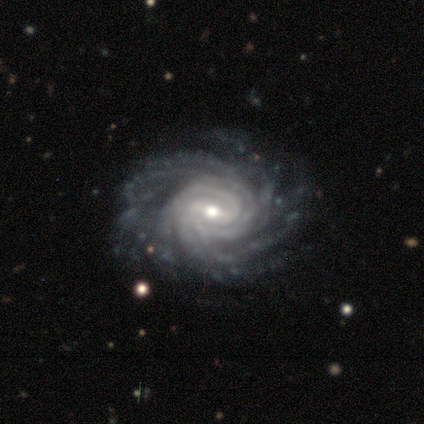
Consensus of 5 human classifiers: A featured or disk galaxy (80%) with a strong bar (50%, tied with weak), more than 4 (100%) tight (75%) spiral arms (100%) and a moderate central bulge (50%, tied with small).

Vote fractions:
- Smooth or featured? featured or disk: 80% / star or artifact: 20% / smooth: 0%
- Edge-on disk? no: 100% / yes: 0%
- Bar? strong: 50% (tied) / weak: 50% (tied) / no: 0%
- Spiral arms? yes: 100% / no: 0%
- Spiral winding? tight: 75% / medium: 25% / loose: 0%
- Spiral arm count? more than 4: 100% / 1: 0% / 2: 0% / 3: 0% / 4: 0% / can't tell: 0%
- Bulge size? moderate: 50% (tied) / small: 50% (tied) / dominant: 0% / large: 0% / none: 0%
- Merging? none: 100% / minor disturbance: 0% / major disturbance: 0% / merger: 0%